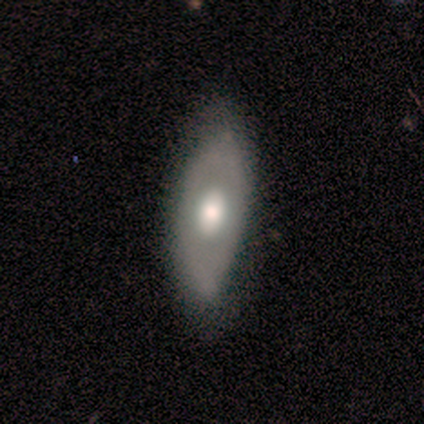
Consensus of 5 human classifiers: A smooth galaxy with no disk features (60%) that is in between round and cigar-shaped (67%). Merging: none (40%, tied with minor disturbance).